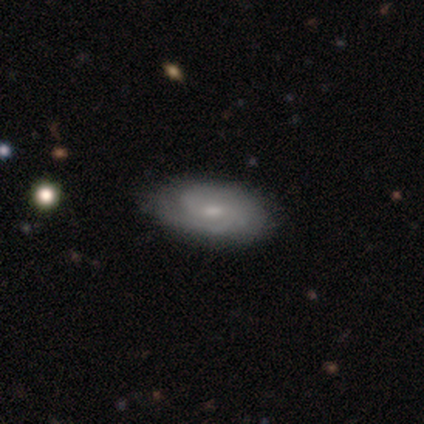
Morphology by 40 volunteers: Smooth or featured? 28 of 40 (70%) said featured or disk. Edge-on disk? 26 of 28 (93%) said no. Bar? 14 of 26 (54%) said no. Spiral arms? 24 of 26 (92%) said yes. Spiral winding? 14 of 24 (58%) said tight. Spiral arm count? 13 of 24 (54%) said 2. Bulge size? 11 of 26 (42%) said small. Merging? 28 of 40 (70%) said none.